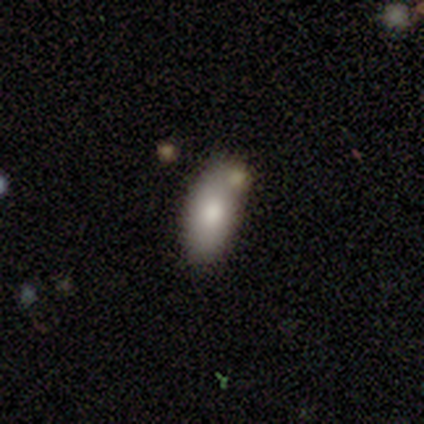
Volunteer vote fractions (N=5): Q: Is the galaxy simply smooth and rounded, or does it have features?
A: smooth — 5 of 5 (100%).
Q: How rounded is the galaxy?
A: in between — 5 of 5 (100%).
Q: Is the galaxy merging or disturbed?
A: none — 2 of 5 (40%).